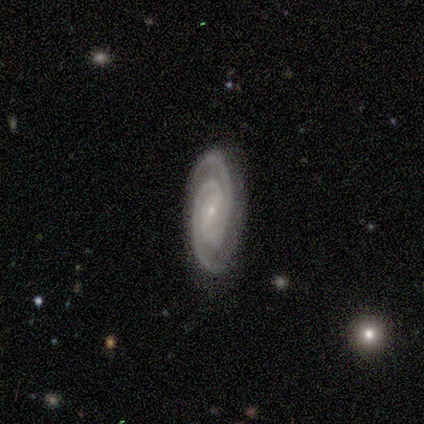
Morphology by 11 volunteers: Volunteers were most divided on "merging": none: 73%, minor disturbance: 27%, major disturbance: 0%, merger: 0%. More confident: smooth or featured — featured or disk (100%); spiral arms — yes (100%); spiral arm count — 2 (100%); edge-on disk — no (91%); bulge size — small (90%); spiral winding — tight (80%); bar — weak (70%).